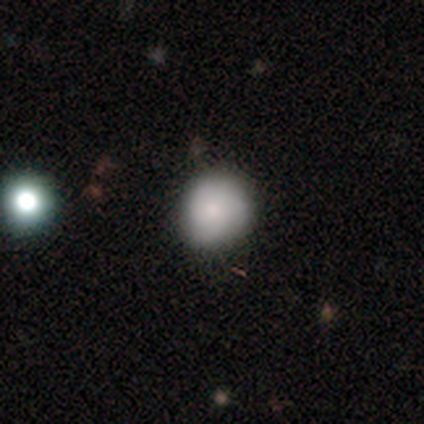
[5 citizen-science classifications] Q: Smooth or featured?
A: smooth (80%); runner-up: star or artifact (20%)
Q: How rounded?
A: round (75%); runner-up: in between (25%)
Q: Merging?
A: none (75%); runner-up: minor disturbance (25%)